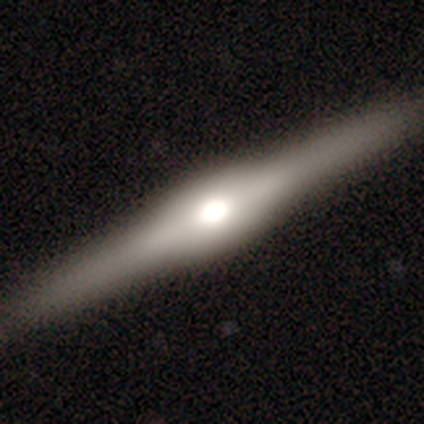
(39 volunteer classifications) Smooth or featured: featured or disk — 85% (smooth — 13%)
Edge-on disk: yes — 97% (no — 3%)
Edge-on bulge: rounded — 88% (boxy — 12%)
Merging: none — 95% (minor disturbance — 3%)